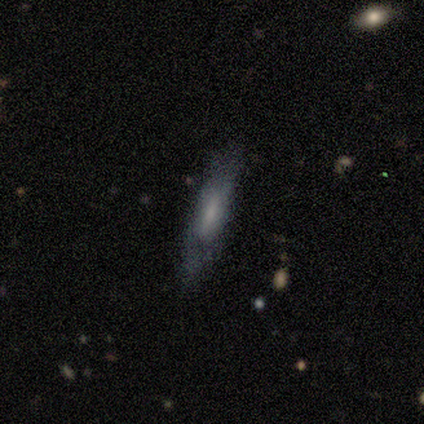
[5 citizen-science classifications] Smooth or featured: featured or disk — 80% (smooth — 20%)
Edge-on disk: yes — 75% (no — 25%)
Edge-on bulge: none — 67% (rounded — 33%)
Merging: minor disturbance — 60% (none — 40%)